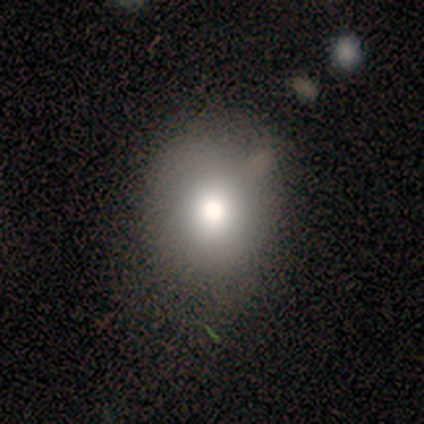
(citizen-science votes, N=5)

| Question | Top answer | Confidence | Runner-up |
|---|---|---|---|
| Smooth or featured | smooth | 60% | star or artifact (40%) |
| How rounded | round | 67% | in between (33%) |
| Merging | none | 67% | minor disturbance (33%) |